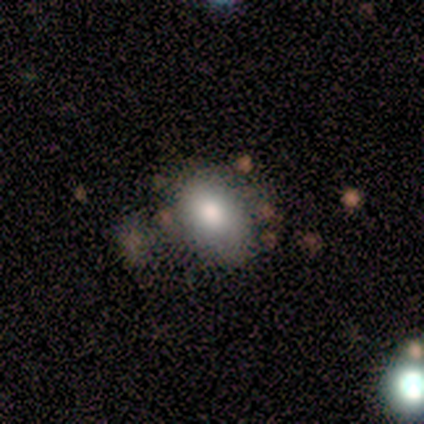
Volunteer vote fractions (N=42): This is clearly a smooth galaxy (83%). How rounded: clearly in between (80%). Merging: likely none (60%).